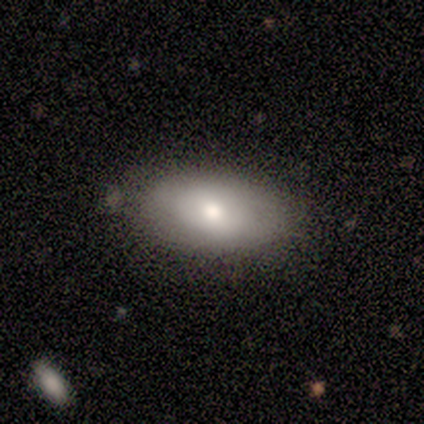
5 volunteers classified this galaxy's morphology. smooth 60%, featured or disk 40%, star or artifact 0%. Down the decision tree: how rounded — in between (100%); merging — none (100%).